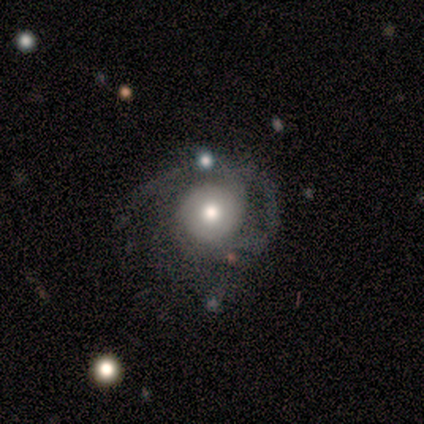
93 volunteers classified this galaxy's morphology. This is likely a featured or disk galaxy (63%). It is clearly not viewed edge-on (98%). Bar: clearly no (91%). Spiral arm pattern: likely yes (74%). Spiral arm count: marginally can't tell (35%). Spiral winding: possibly tight (47%). Central bulge: likely moderate (67%). Merging: marginally none (44%).